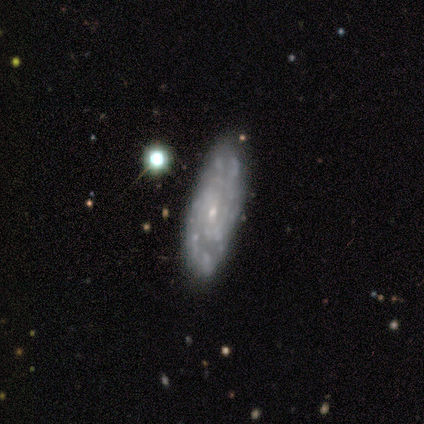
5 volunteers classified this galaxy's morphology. A featured or disk galaxy (100%) with a weak bar (80%), 2 (40%) loose (60%) spiral arms (100%) and a small central bulge (80%).

Vote fractions:
- Smooth or featured? featured or disk: 100% / smooth: 0% / star or artifact: 0%
- Edge-on disk? no: 100% / yes: 0%
- Bar? weak: 80% / no: 20% / strong: 0%
- Spiral arms? yes: 100% / no: 0%
- Spiral winding? loose: 60% / tight: 20% / medium: 20%
- Spiral arm count? 2: 40% / 3: 20% / 4: 20% / can't tell: 20% / 1: 0% / more than 4: 0%
- Bulge size? small: 80% / moderate: 20% / dominant: 0% / large: 0% / none: 0%
- Merging? none: 80% / minor disturbance: 20% / major disturbance: 0% / merger: 0%